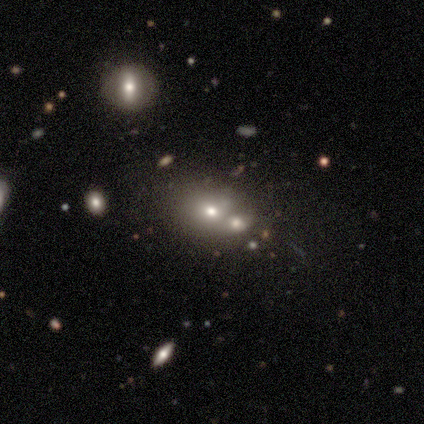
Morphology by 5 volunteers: This appears to be a featured or disk galaxy (60%) with no bar (100%), no spiral arms (100%) and a small central bulge (67%). Merging: none (67%).